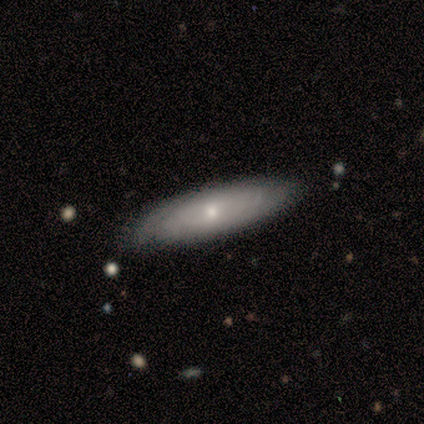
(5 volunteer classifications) This appears to be a featured or disk galaxy (60%) with a strong bar (50%, tied with no), medium (100%) spiral arms (100%) and a small central bulge (100%). Merging: none (100%).